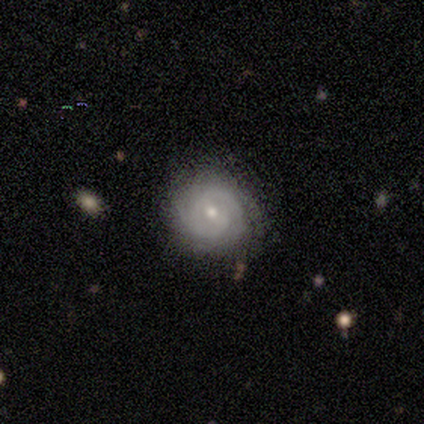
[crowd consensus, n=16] Smooth or featured? featured or disk (81%)
Edge-on disk? no (92%)
Bar? weak (50%, tied with no)
Spiral arms? yes (92%)
Spiral winding? tight (91%)
Spiral arm count? 2 (36%, tied with can't tell)
Bulge size? small (58%)
Merging? none (57%)